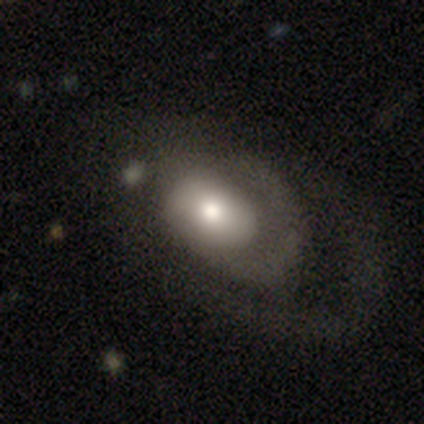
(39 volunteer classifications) Smooth or featured?
  - featured or disk: 51% *
  - smooth: 49%
  - star or artifact: 0%
Edge-on disk?
  - no: 100% *
  - yes: 0%
Bar?
  - no: 80% *
  - strong: 10%
  - weak: 10%
Spiral arms?
  - yes: 70% *
  - no: 30%
Spiral winding?
  - tight: 36% * (tied)
  - loose: 36% * (tied)
  - medium: 29%
Spiral arm count?
  - can't tell: 57% *
  - 2: 21%
  - 3: 14%
  - 1: 7%
  - 4: 0%
  - more than 4: 0%
Bulge size?
  - moderate: 60% *
  - large: 25%
  - small: 10%
  - dominant: 5%
  - none: 0%
Merging?
  - major disturbance: 33% *
  - none: 31%
  - minor disturbance: 10%
  - merger: 5%